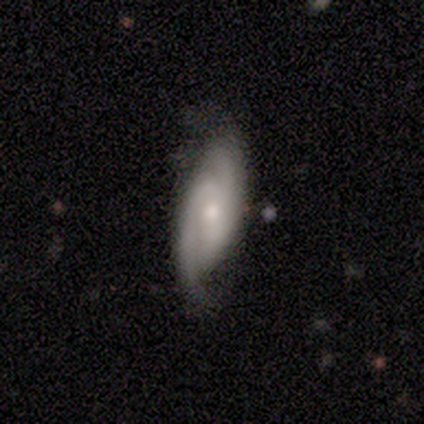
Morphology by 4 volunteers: This is likely a featured or disk galaxy (75%). It is clearly not viewed edge-on (100%). Bar: likely weak (67%). Spiral arm pattern: clearly yes (100%). Spiral arm count: clearly 2 (100%). Spiral winding: marginally tight (33%, tied with medium and loose). Central bulge: marginally moderate (33%, tied with small and none). Merging: likely none (75%).